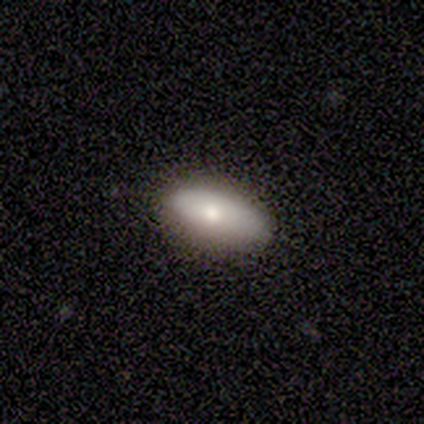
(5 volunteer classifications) A smooth galaxy with no disk features (60%) that is in between round and cigar-shaped (67%). Merging: none (100%).